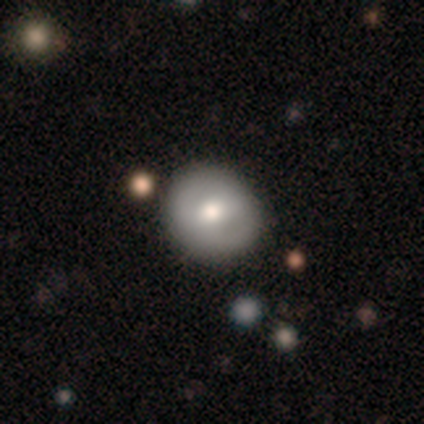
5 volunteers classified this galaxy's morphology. type=featured or disk (60%); edge-on=no (100%); bar=no (67%); spiral arms=no (67%); bulge=large (67%); merging=none (100%).